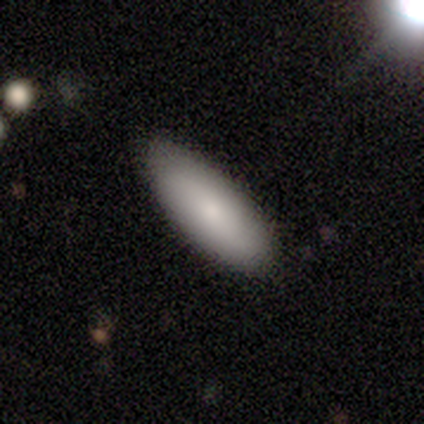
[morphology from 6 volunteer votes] Smooth or featured? smooth (50%, tied with featured or disk)
How rounded? in between (67%)
Merging? none (83%)